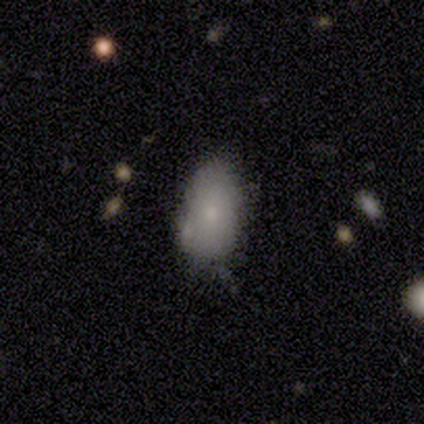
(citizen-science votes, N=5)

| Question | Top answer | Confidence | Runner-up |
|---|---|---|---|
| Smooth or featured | smooth | 60% | featured or disk (20%) |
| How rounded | in between | 100% | — |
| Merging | minor disturbance | 75% | none (25%) |